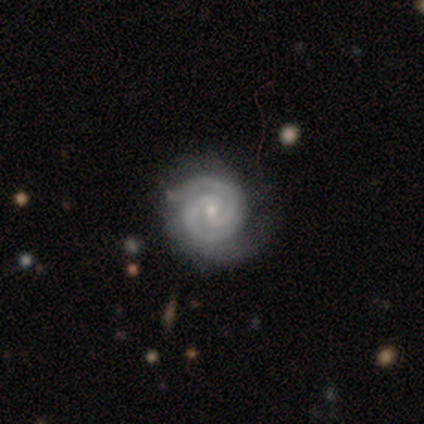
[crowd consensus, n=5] Morphology: type=featured or disk (100%); edge-on=no (100%); bar=no (60%); spiral arms=yes (100%); winding=tight (100%); arm count=2 (100%); bulge=small (60%); merging=none (100%).